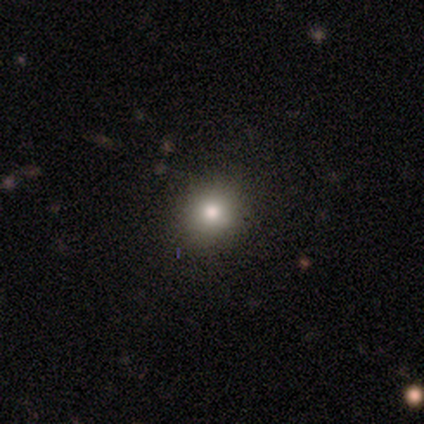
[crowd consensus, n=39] smooth 74%, star or artifact 21%, featured or disk 5%. Down the decision tree: how rounded — round (83%); merging — none (90%).